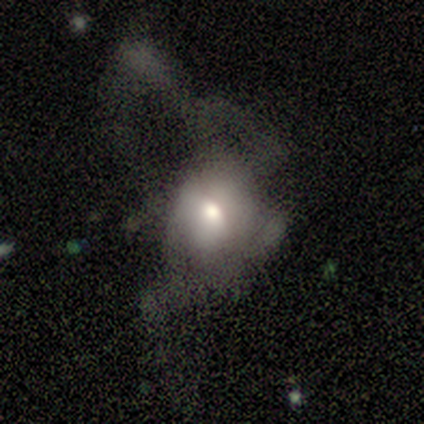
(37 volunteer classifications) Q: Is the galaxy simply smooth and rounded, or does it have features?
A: smooth — 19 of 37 (51%).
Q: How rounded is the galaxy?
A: in between — 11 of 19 (58%).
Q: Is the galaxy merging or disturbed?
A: major disturbance — 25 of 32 (78%).